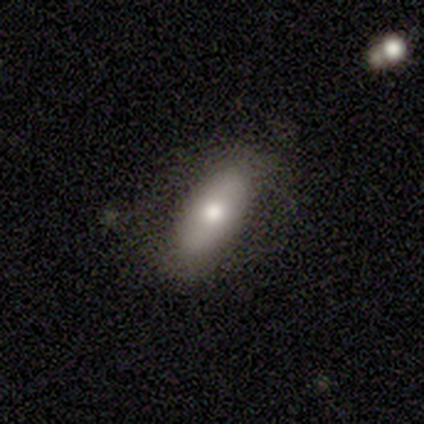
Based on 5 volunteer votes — Volunteers were most divided on "smooth or featured": smooth: 80%, featured or disk: 20%, star or artifact: 0%. More confident: how rounded — in between (100%); merging — none (80%).